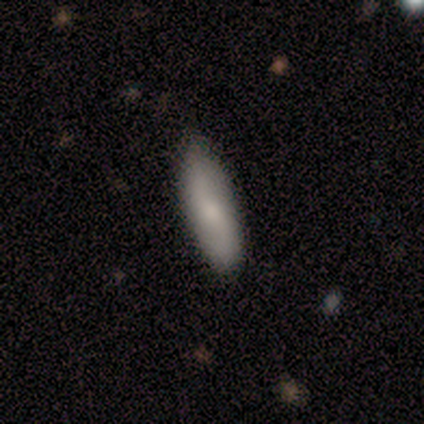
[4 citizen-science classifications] Q: Smooth or featured?
A: smooth (50%); tied with: featured or disk (50%)
Q: How rounded?
A: in between (100%)
Q: Merging?
A: none (100%)